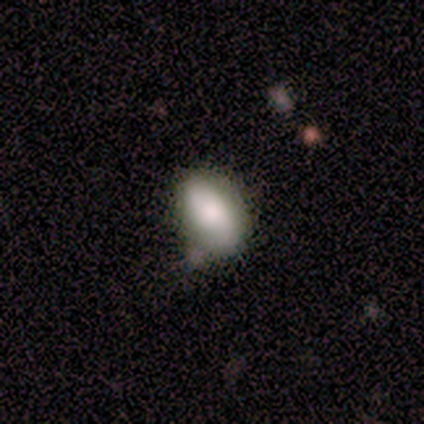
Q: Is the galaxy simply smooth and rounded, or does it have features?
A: smooth — 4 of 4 (100%).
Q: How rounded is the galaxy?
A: in between — 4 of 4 (100%).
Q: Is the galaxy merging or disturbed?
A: minor disturbance — 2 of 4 (50%).